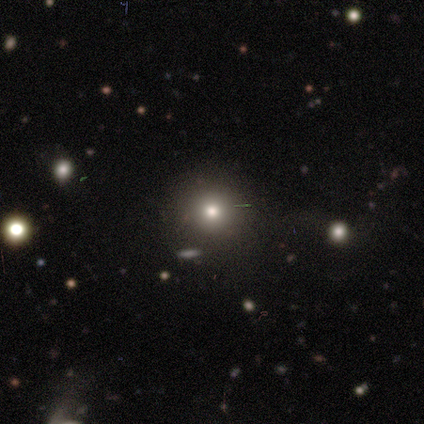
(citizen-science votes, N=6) smooth-or-featured: smooth: 83% | featured or disk: 17% | star or artifact: 0%
  how-rounded: round: 60% | in between: 20% | cigar-shaped: 20%
  merging: none: 100% | minor disturbance: 0% | major disturbance: 0% | merger: 0%